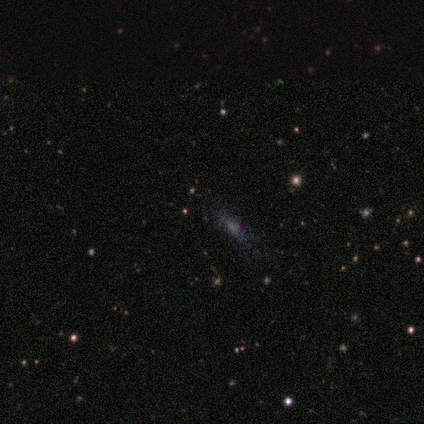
smooth 40% (tied), featured or disk 40% (tied), star or artifact 20%. Down the decision tree: how rounded — in between (100%); merging — none (75%).